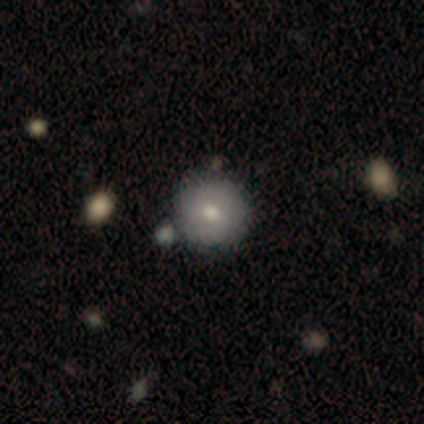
Smooth or featured?
  - smooth: 100% *
  - featured or disk: 0%
  - star or artifact: 0%
How rounded?
  - round: 100% *
  - in between: 0%
  - cigar-shaped: 0%
Merging?
  - none: 67% *
  - minor disturbance: 33%
  - major disturbance: 0%
  - merger: 0%